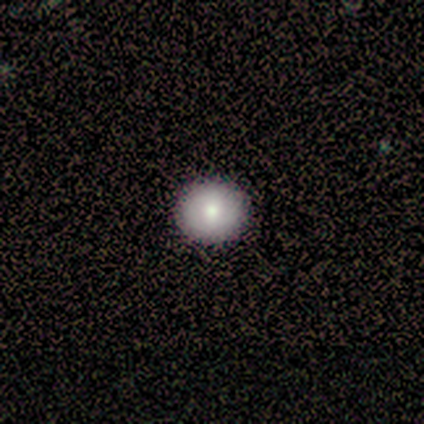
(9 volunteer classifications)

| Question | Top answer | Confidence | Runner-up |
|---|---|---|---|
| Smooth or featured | smooth | 89% | star or artifact (11%) |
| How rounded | round | 75% | in between (25%) |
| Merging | none | 100% | — |